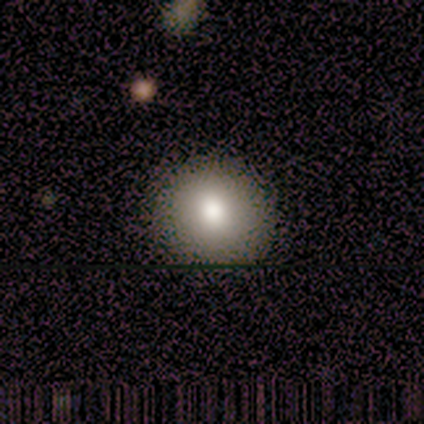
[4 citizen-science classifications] A smooth galaxy with no disk features (75%) that is round (67%). Merging: none (100%).